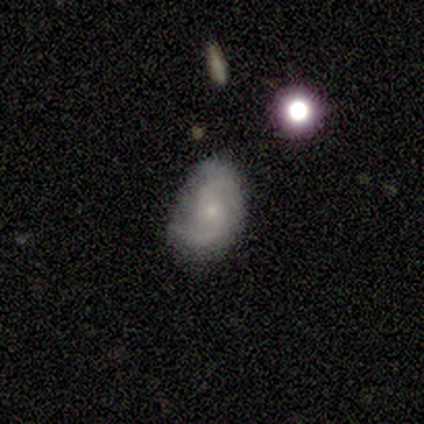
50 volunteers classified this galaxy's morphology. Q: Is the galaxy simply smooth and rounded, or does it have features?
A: featured or disk — 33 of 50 (66%).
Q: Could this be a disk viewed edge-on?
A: no — 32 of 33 (97%).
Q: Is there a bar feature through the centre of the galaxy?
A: no — 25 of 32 (78%).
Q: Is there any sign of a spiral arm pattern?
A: yes — 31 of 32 (97%).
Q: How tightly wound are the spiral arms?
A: medium — 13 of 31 (42%).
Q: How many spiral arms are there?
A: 2 — 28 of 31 (90%).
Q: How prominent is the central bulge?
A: small — 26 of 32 (81%).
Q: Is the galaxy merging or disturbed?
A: none — 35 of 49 (71%).